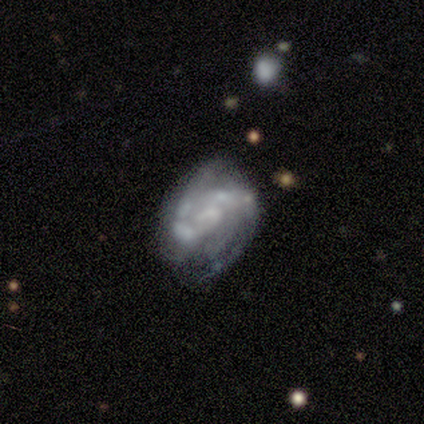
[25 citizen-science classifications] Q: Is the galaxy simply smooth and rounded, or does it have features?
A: featured or disk — 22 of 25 (88%).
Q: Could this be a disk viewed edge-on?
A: no — 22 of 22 (100%).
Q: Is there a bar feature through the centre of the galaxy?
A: no — 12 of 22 (55%).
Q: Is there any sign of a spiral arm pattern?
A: yes — 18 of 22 (82%).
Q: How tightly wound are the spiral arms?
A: medium — 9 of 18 (50%).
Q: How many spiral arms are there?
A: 2 — 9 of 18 (50%).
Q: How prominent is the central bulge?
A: none — 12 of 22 (55%).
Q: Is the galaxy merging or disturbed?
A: none — 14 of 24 (58%).